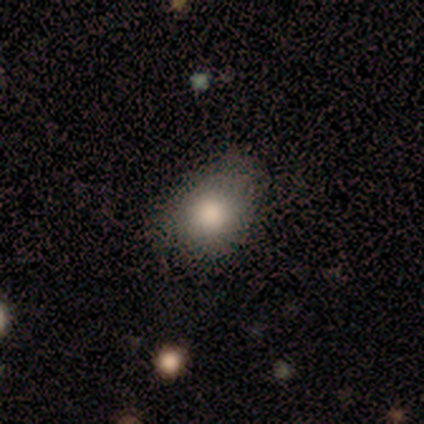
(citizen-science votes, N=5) smooth 80%, star or artifact 20%, featured or disk 0%. Down the decision tree: how rounded — in between (75%); merging — none (50%).